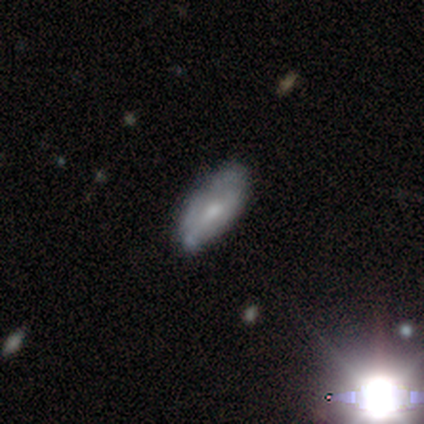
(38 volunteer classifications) Volunteers were most divided on "smooth or featured": smooth: 58%, featured or disk: 32%, star or artifact: 11%. More confident: how rounded — in between (77%); merging — none (74%).